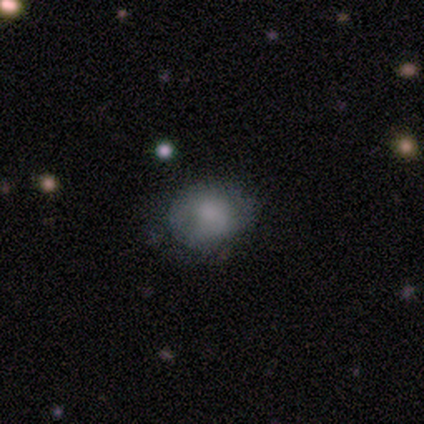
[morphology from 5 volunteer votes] Smooth or featured: smooth — 80% (star or artifact — 20%)
How rounded: in between — 75% (round — 25%)
Merging: none — 50% (tied with minor disturbance — 50%)